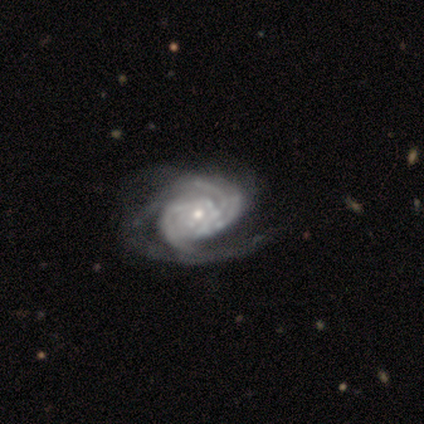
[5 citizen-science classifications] Volunteers were most divided on "spiral arm count" (2-way tie): 2: 40%, can't tell: 40%, 3: 20%, 1: 0%, 4: 0%, more than 4: 0%. More confident: smooth or featured — featured or disk (100%); edge-on disk — no (100%); bar — no (100%); spiral arms — yes (100%); spiral winding — tight (60%); bulge size — small (60%); merging — major disturbance (60%).